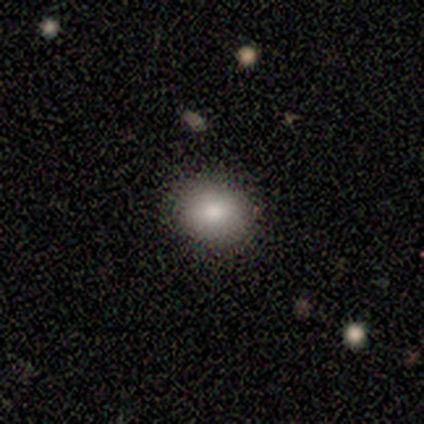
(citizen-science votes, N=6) smooth 83%, star or artifact 17%, featured or disk 0%. Down the decision tree: how rounded — in between (60%); merging — none (80%).